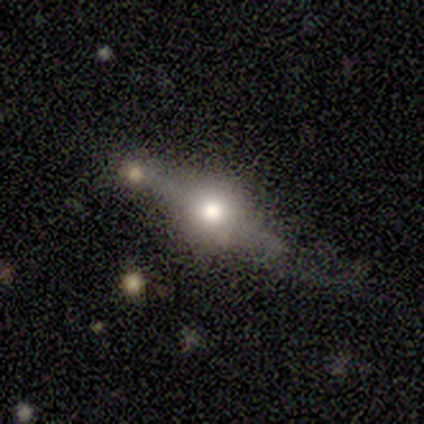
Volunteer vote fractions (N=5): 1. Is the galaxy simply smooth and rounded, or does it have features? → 100% featured or disk, 0% smooth, 0% star or artifact.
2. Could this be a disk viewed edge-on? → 100% yes, 0% no.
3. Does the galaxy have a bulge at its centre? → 100% rounded, 0% boxy, 0% none.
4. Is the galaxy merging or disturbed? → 100% none, 0% minor disturbance, 0% major disturbance, 0% merger.